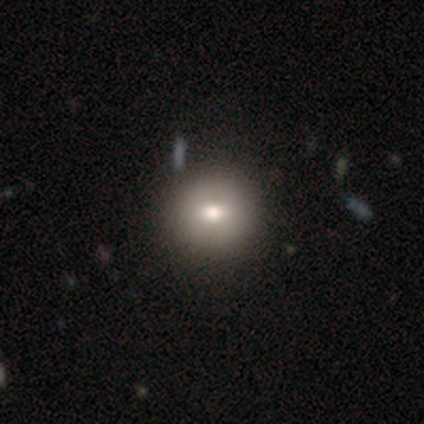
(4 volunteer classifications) smooth-or-featured: smooth: 75% | star or artifact: 25% | featured or disk: 0%
  how-rounded: round: 100% | in between: 0% | cigar-shaped: 0%
  merging: none: 100% | minor disturbance: 0% | major disturbance: 0% | merger: 0%